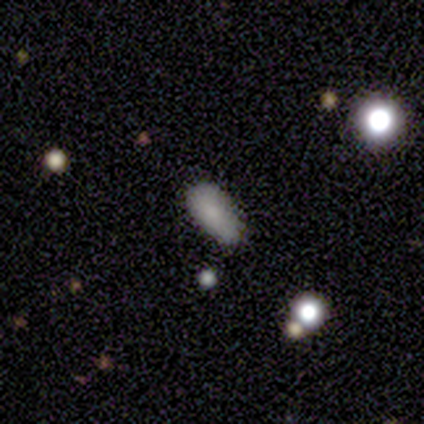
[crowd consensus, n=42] smooth 74%, featured or disk 14%, star or artifact 12%. Down the decision tree: how rounded — in between (94%); merging — none (54%).